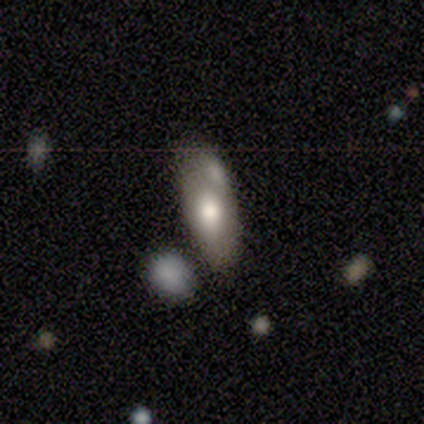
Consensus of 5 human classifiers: A smooth galaxy with no disk features (80%) that is in between round and cigar-shaped (100%). Merging: none (50%, tied with merger).